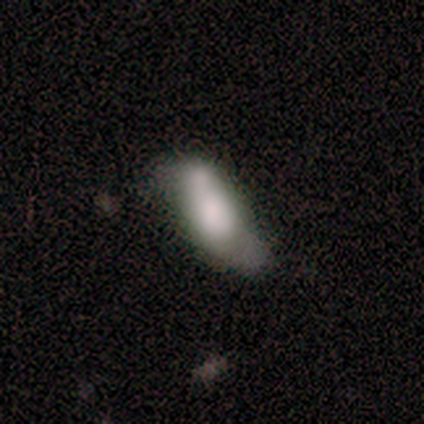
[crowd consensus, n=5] smooth_or_featured: smooth (p=0.80) [alt: featured or disk p=0.20]
how_rounded: in between (p=0.50) [tied with: cigar-shaped p=0.50]
merging: merger (p=0.60) [alt: none p=0.20]